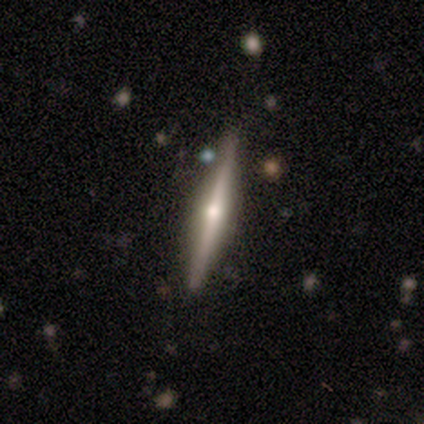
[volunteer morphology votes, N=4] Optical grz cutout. It shows a featured or disk galaxy (50%) viewed edge-on (100%) with a rounded central bulge (100%). Merging: none (100%).